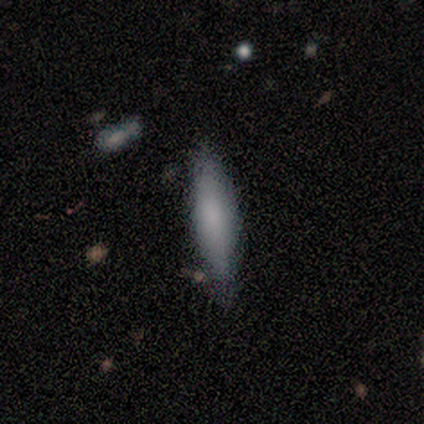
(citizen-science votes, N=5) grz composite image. It shows a smooth galaxy with no disk features (60%) that is cigar-shaped (100%). Merging: none (100%).